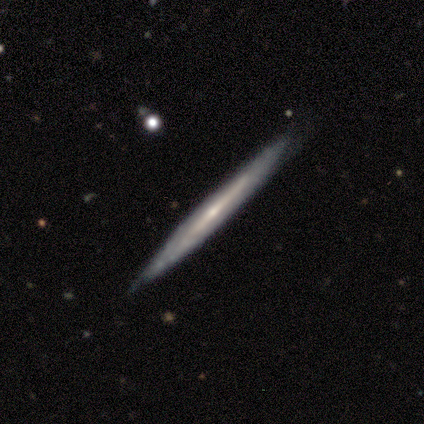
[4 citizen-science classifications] Volunteers were most divided on "merging": none: 67%, minor disturbance: 33%, major disturbance: 0%, merger: 0%. More confident: edge-on disk — yes (100%); edge-on bulge — none (100%); smooth or featured — featured or disk (75%).